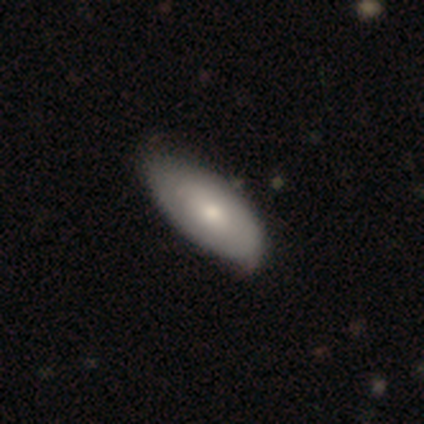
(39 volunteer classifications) Volunteers were most divided on "smooth or featured": smooth: 64%, featured or disk: 36%, star or artifact: 0%. More confident: how rounded — in between (88%); merging — none (59%).